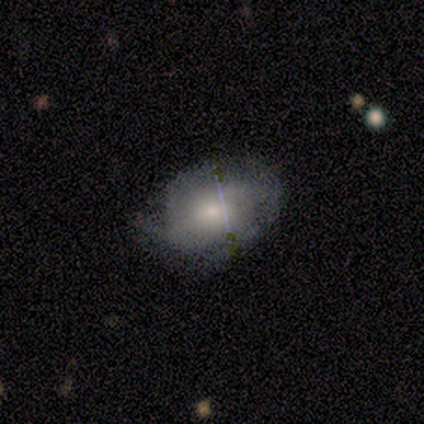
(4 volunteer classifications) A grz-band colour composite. It shows a featured or disk galaxy (75%) with no bar (67%), 3 (33%, tied with 4 and can't tell) tight (67%) spiral arms (100%) and a small central bulge (67%). Merging: none (100%).